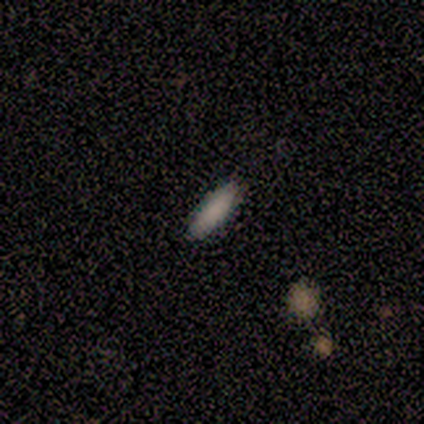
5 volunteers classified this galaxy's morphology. Overall: smooth (100%). How rounded: in between (60%; cigar-shaped 40%). Merging: none (80%).